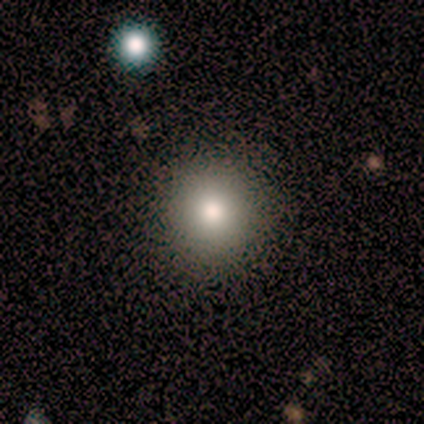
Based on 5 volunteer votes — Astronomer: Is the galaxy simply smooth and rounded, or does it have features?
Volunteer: star or artifact — 60% (runner-up: smooth, 40%).